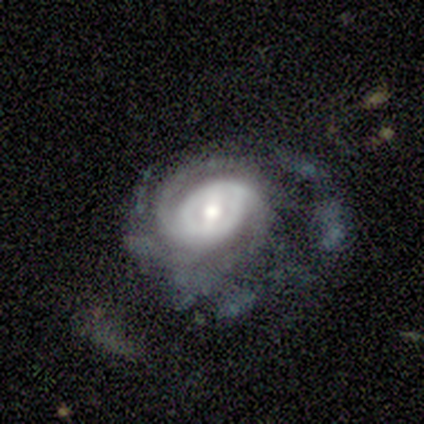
Volunteers were most divided on "spiral arm count" (2-way tie): 2: 50%, can't tell: 50%, 1: 0%, 3: 0%, 4: 0%, more than 4: 0%. More confident: spiral winding — medium (100%); smooth or featured — featured or disk (80%); edge-on disk — no (75%); bar — weak (67%); spiral arms — yes (67%); bulge size — small (67%); merging — minor disturbance (50%).